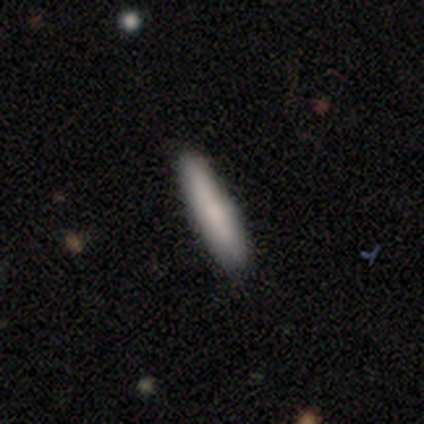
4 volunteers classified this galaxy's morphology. Overall: smooth (50%; featured or disk 25%). How rounded: cigar-shaped (100%). Merging: none (100%).